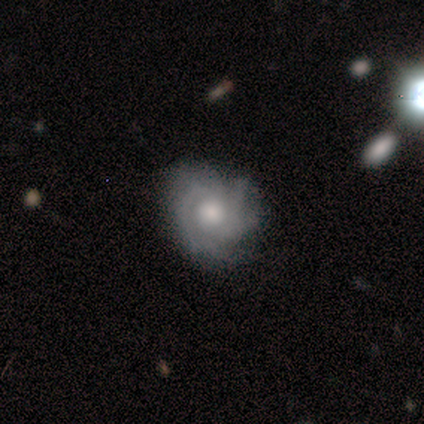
smooth_or_featured: featured or disk (p=0.80) [alt: smooth p=0.20]
disk_edge_on: no (p=1.00)
bar: no (p=1.00)
has_spiral_arms: yes (p=0.75) [alt: no p=0.25]
spiral_winding: tight (p=0.67) [alt: medium p=0.33]
spiral_arm_count: 2 (p=0.33) [tied with: 3 p=0.33, can't tell p=0.33]
bulge_size: moderate (p=0.50) [alt: large p=0.25]
merging: none (p=1.00)